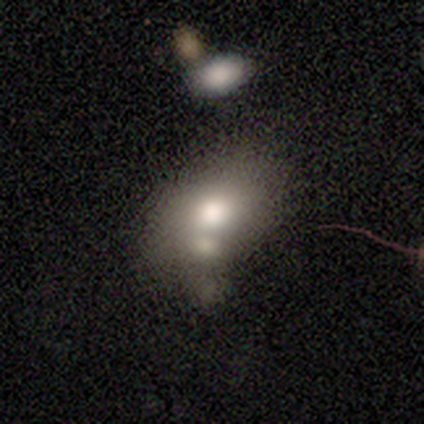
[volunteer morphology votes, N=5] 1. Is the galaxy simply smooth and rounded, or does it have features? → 60% smooth, 40% featured or disk, 0% star or artifact.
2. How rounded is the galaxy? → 100% in between, 0% round, 0% cigar-shaped.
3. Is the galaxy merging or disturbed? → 80% merger, 20% minor disturbance, 0% none, 0% major disturbance.